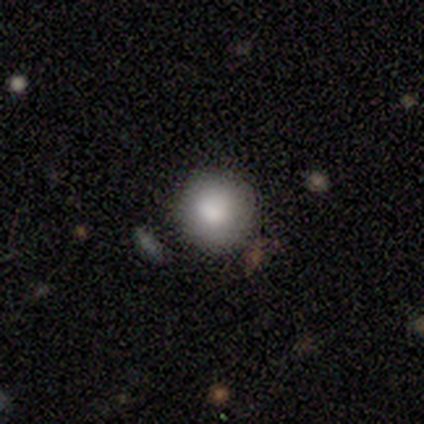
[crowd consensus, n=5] smooth 100%, featured or disk 0%, star or artifact 0%. Down the decision tree: how rounded — round (100%); merging — none (80%).